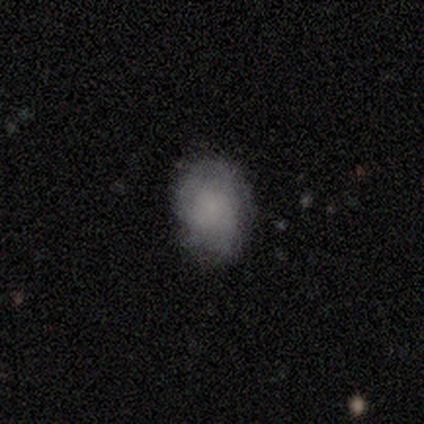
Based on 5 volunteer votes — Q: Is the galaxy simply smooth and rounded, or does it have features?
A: smooth — 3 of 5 (60%).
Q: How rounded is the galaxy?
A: in between — 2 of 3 (67%).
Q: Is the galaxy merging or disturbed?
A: none — 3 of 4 (75%).